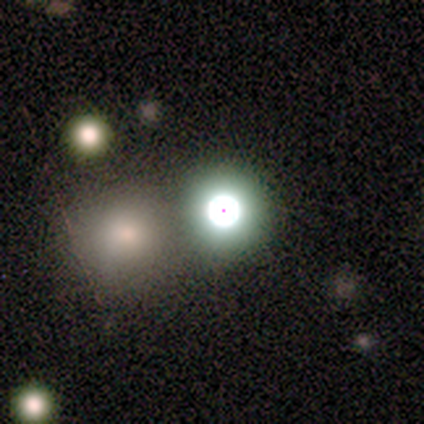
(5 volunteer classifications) featured or disk 40% (tied), star or artifact 40% (tied), smooth 20%. Down the decision tree: edge-on disk — no (100%); bar — no (100%); spiral arms — no (100%); bulge size — large (50%, tied with small); merging — none (67%).